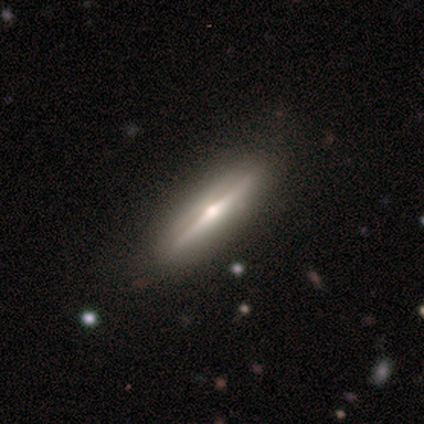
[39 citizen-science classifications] Smooth or featured? featured or disk (82%)
Edge-on disk? yes (100%)
Edge-on bulge? rounded (88%)
Merging? none (92%)